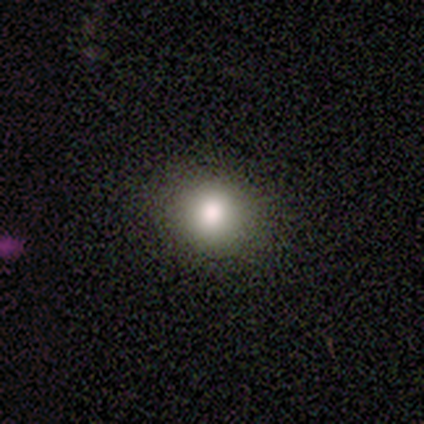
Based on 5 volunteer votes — Smooth or featured: smooth — 80% (star or artifact — 20%)
How rounded: round — 100%
Merging: none — 50% (tied with minor disturbance — 50%)